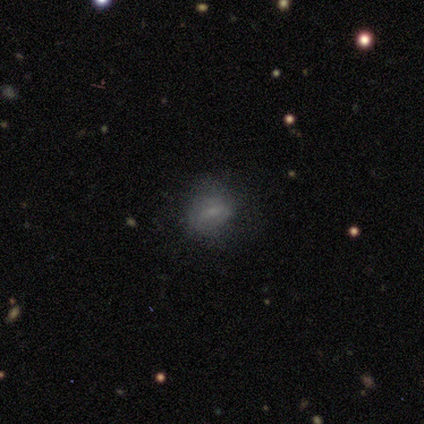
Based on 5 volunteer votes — smooth 60%, featured or disk 40%, star or artifact 0%. Down the decision tree: how rounded — in between (67%); merging — none (40%, tied with minor disturbance).